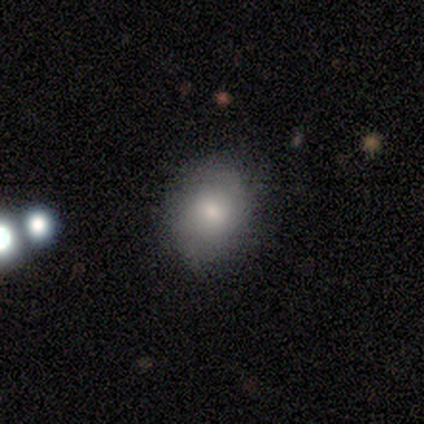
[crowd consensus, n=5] smooth 80%, featured or disk 20%, star or artifact 0%. Down the decision tree: how rounded — round (50%, tied with in between); merging — none (100%).